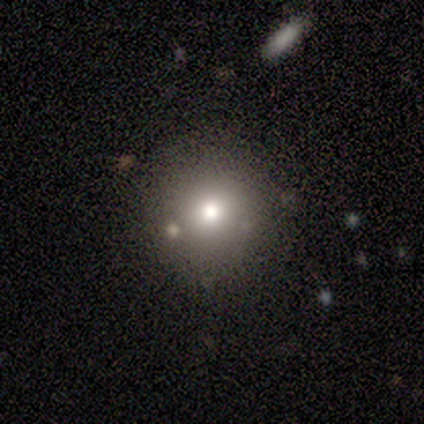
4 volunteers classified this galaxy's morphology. type=smooth (100%); roundness=round (100%); merging=none (75%).